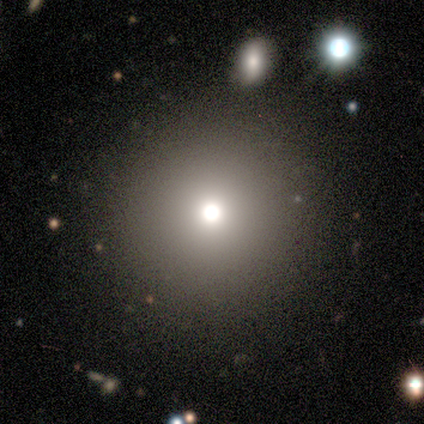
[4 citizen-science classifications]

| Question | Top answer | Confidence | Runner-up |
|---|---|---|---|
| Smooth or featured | smooth | 50% | tied: star or artifact (50%) |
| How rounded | round | 100% | — |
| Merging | none | 100% | — |